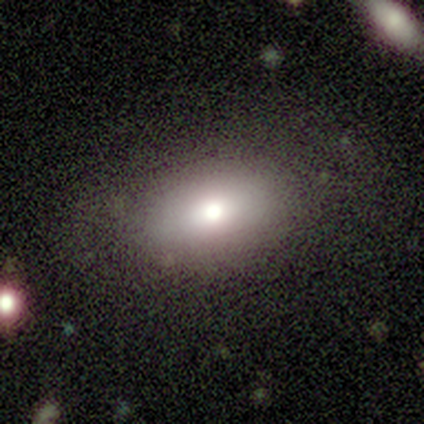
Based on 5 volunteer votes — A smooth galaxy with no disk features (80%) that is in between round and cigar-shaped (75%).

Vote fractions:
- Smooth or featured? smooth: 80% / star or artifact: 20% / featured or disk: 0%
- How rounded? in between: 75% / round: 25% / cigar-shaped: 0%
- Merging? none: 50% / major disturbance: 25% / merger: 25% / minor disturbance: 0%